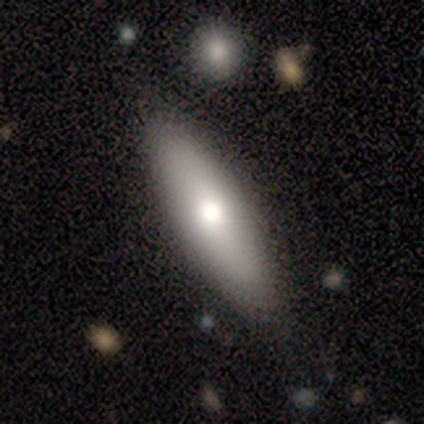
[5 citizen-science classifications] smooth 60%, featured or disk 40%, star or artifact 0%. Down the decision tree: how rounded — cigar-shaped (100%); merging — none (80%).